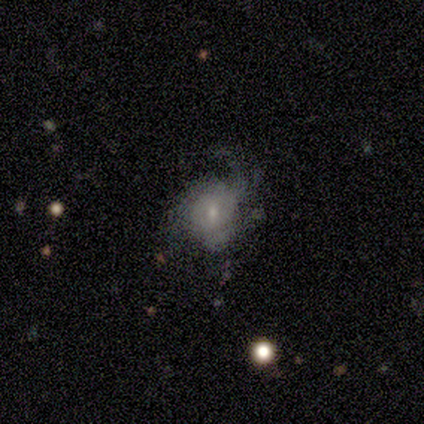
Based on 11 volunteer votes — Overall: featured or disk (55%; smooth 36%). Edge-on disk: no (100%). Bar: weak (67%; no 33%). Spiral arms: yes (100%). Spiral arm count: can't tell (83%). Spiral winding: medium (50%, tied with loose). Bulge size: small (100%). Merging: major disturbance (40%; none 30%).